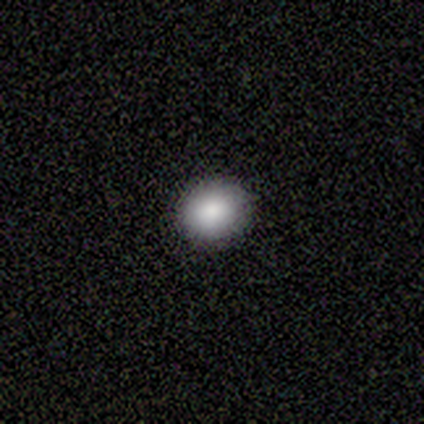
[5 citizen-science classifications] smooth_or_featured: smooth (p=1.00)
how_rounded: round (p=1.00)
merging: none (p=1.00)